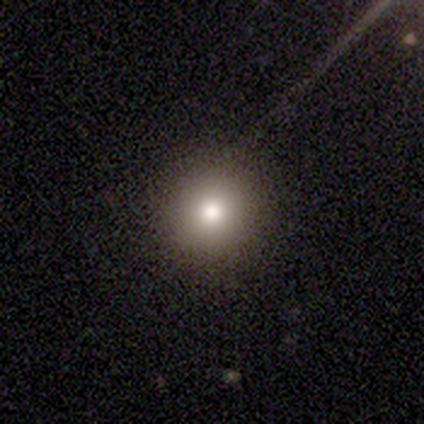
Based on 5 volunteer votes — Morphology: type=smooth (100%); roundness=round (100%); merging=none (100%).